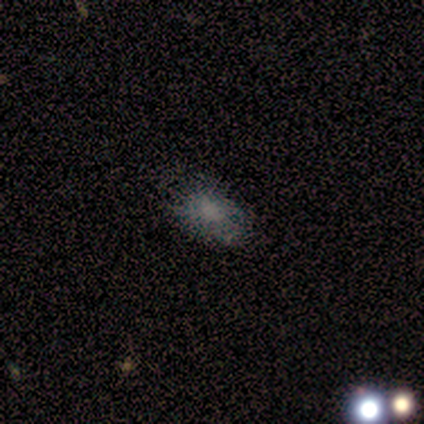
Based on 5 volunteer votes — Smooth or featured?
  - smooth: 100% *
  - featured or disk: 0%
  - star or artifact: 0%
How rounded?
  - in between: 100% *
  - round: 0%
  - cigar-shaped: 0%
Merging?
  - none: 100% *
  - minor disturbance: 0%
  - major disturbance: 0%
  - merger: 0%